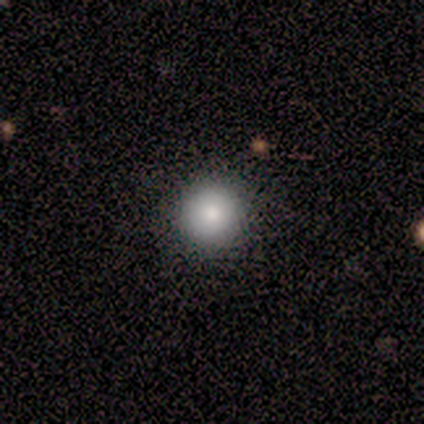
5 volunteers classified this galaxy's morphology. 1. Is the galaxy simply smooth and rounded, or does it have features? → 100% smooth, 0% featured or disk, 0% star or artifact.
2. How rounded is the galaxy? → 100% round, 0% in between, 0% cigar-shaped.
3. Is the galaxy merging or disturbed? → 100% none, 0% minor disturbance, 0% major disturbance, 0% merger.